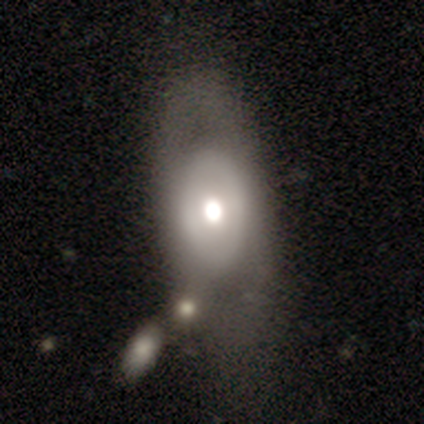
A smooth galaxy with no disk features (100%) that is in between round and cigar-shaped (100%). Merging: major disturbance (100%).